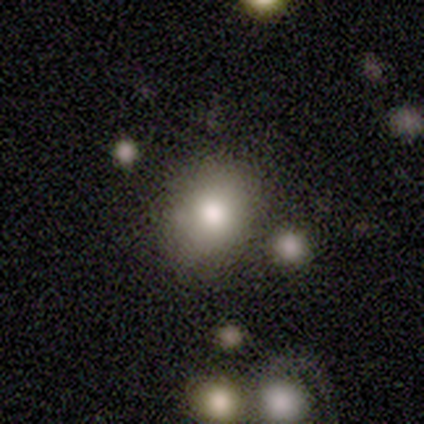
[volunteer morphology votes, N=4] A smooth galaxy with no disk features (75%) that is round (67%).

Vote fractions:
- Smooth or featured? smooth: 75% / star or artifact: 25% / featured or disk: 0%
- How rounded? round: 67% / in between: 33% / cigar-shaped: 0%
- Merging? none: 100% / minor disturbance: 0% / major disturbance: 0% / merger: 0%